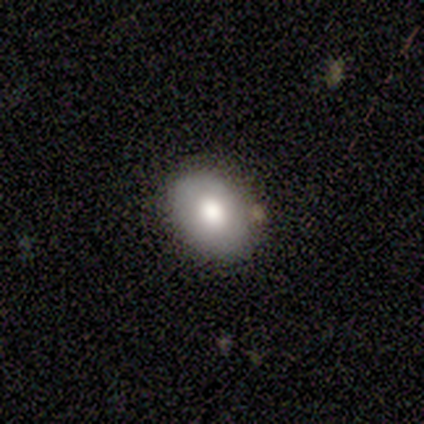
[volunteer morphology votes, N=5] Smooth or featured? 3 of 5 (60%) said featured or disk. Edge-on disk? 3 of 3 (100%) said no. Bar? 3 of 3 (100%) said no. Spiral arms? 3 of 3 (100%) said no. Bulge size? 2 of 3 (67%) said moderate. Merging? 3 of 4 (75%) said none.